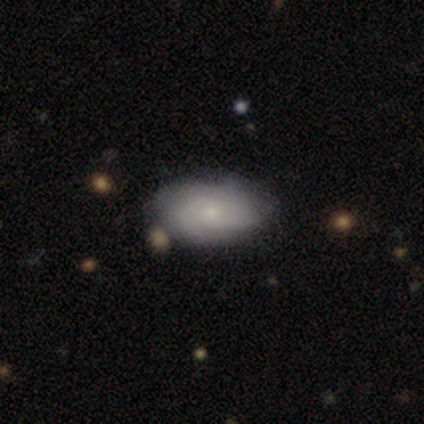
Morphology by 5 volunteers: Overall: smooth (60%; featured or disk 40%). How rounded: in between (100%). Merging: none (60%; minor disturbance 20%).